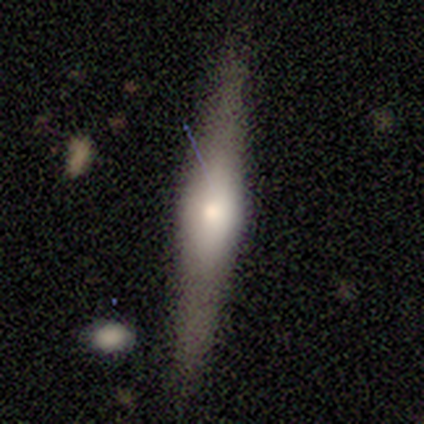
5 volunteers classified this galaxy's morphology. This is marginally a smooth galaxy (40%, tied with featured or disk). How rounded: clearly cigar-shaped (100%). Merging: likely none (75%).